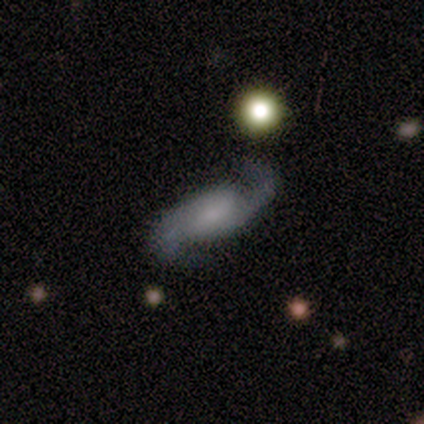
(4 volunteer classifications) Smooth or featured?
  - featured or disk: 100% *
  - smooth: 0%
  - star or artifact: 0%
Edge-on disk?
  - no: 100% *
  - yes: 0%
Bar?
  - no: 50% *
  - strong: 25%
  - weak: 25%
Spiral arms?
  - yes: 100% *
  - no: 0%
Spiral winding?
  - loose: 75% *
  - medium: 25%
  - tight: 0%
Spiral arm count?
  - 2: 100% *
  - 1: 0%
  - 3: 0%
  - 4: 0%
  - more than 4: 0%
  - can't tell: 0%
Bulge size?
  - small: 75% *
  - none: 25%
  - dominant: 0%
  - large: 0%
  - moderate: 0%
Merging?
  - none: 75% *
  - minor disturbance: 25%
  - major disturbance: 0%
  - merger: 0%